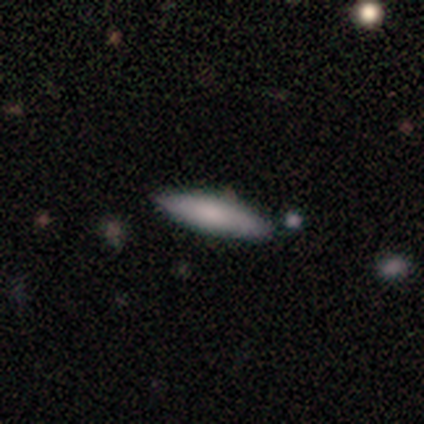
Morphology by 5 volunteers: smooth-or-featured: smooth: 80% | featured or disk: 20% | star or artifact: 0%
  how-rounded: in between: 50% (tied) | cigar-shaped: 50% (tied) | round: 0%
  merging: none: 100% | minor disturbance: 0% | major disturbance: 0% | merger: 0%